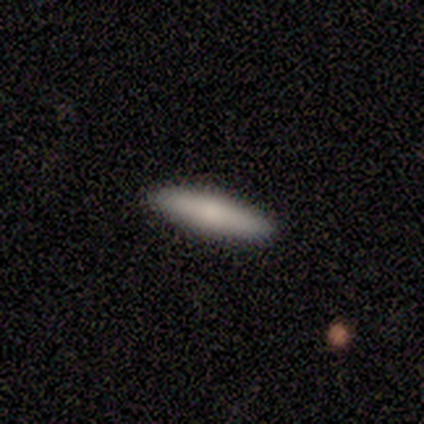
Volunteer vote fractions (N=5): Q: Smooth or featured?
A: smooth (40%); tied with: featured or disk (40%)
Q: How rounded?
A: cigar-shaped (100%)
Q: Merging?
A: none (100%)